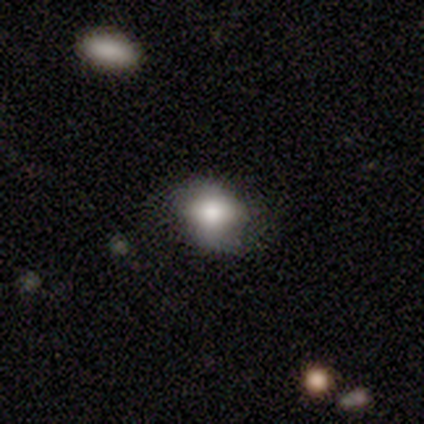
smooth_or_featured: smooth (p=0.78) [alt: featured or disk p=0.16]
how_rounded: round (p=0.62) [alt: in between p=0.38]
merging: none (p=0.69) [alt: minor disturbance p=0.29]